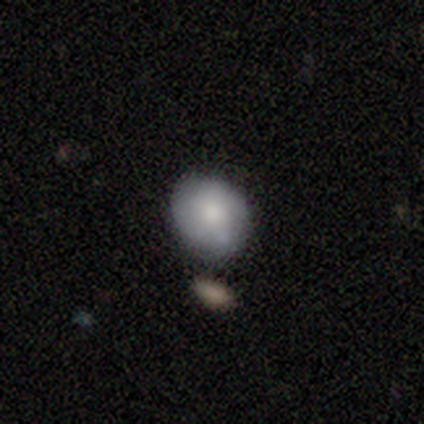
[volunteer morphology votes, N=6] smooth_or_featured: smooth (p=0.67) [alt: featured or disk p=0.33]
how_rounded: round (p=1.00)
merging: none (p=0.67) [alt: minor disturbance p=0.17]